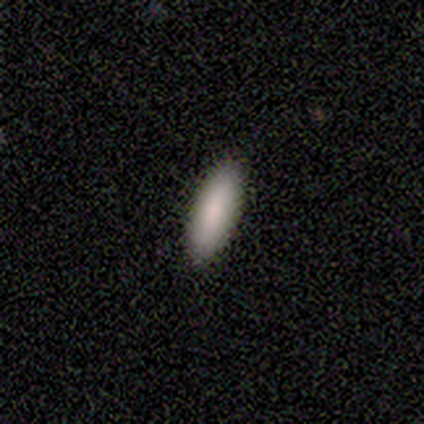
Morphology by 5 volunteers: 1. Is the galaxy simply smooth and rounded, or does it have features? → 100% smooth, 0% featured or disk, 0% star or artifact.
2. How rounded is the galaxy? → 60% in between, 40% cigar-shaped, 0% round.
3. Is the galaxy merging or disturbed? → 100% none, 0% minor disturbance, 0% major disturbance, 0% merger.